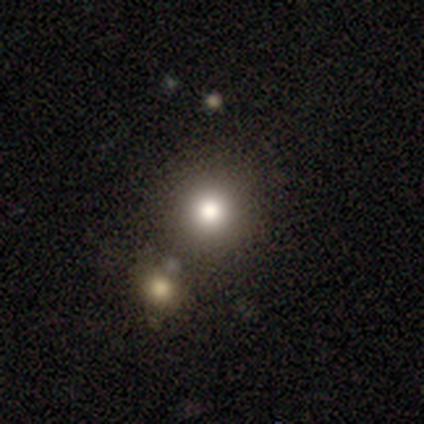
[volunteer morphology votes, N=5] A smooth galaxy with no disk features (40%, tied with star or artifact) that is round (100%). Merging: none (100%).